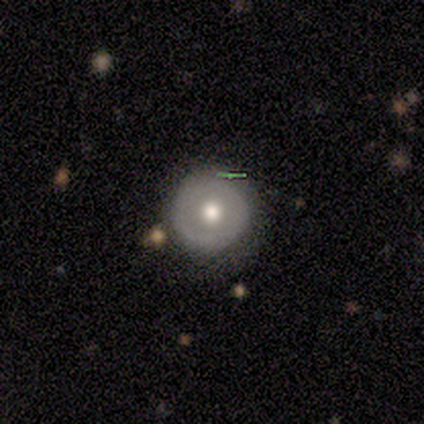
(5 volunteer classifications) smooth_or_featured: smooth (p=0.60) [alt: featured or disk p=0.40]
how_rounded: round (p=1.00)
merging: none (p=0.80) [alt: major disturbance p=0.20]